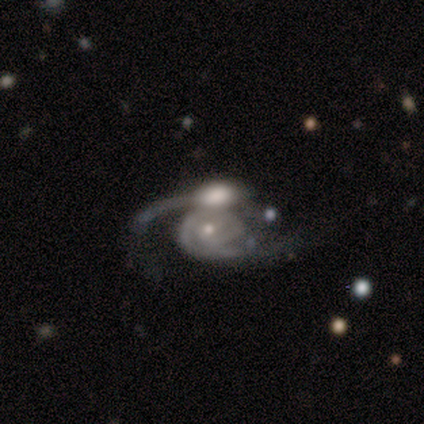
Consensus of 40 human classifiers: Smooth or featured: featured or disk — 88% (smooth — 10%)
Edge-on disk: no — 97% (yes — 3%)
Bar: no — 79% (weak — 18%)
Spiral arms: yes — 94% (no — 6%)
Spiral winding: medium — 38% (tight — 34%)
Spiral arm count: 2 — 72% (1 — 19%)
Bulge size: small — 74% (moderate — 21%)
Merging: merger — 46% (none — 23%)